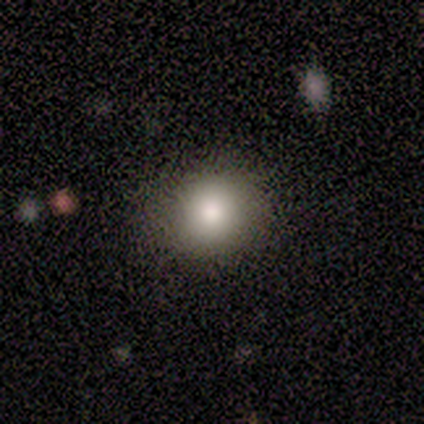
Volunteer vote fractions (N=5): This is clearly a smooth galaxy (100%). How rounded: clearly round (100%). Merging: clearly none (100%).